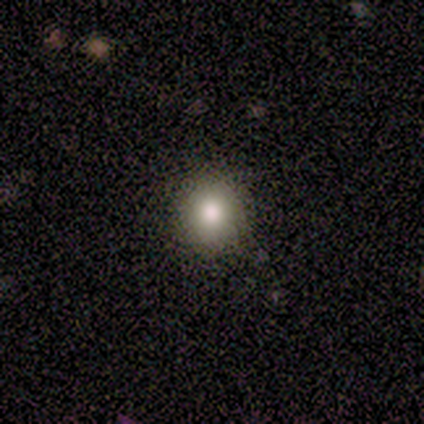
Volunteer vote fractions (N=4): Overall: smooth (75%). How rounded: round (67%; in between 33%). Merging: none (100%).